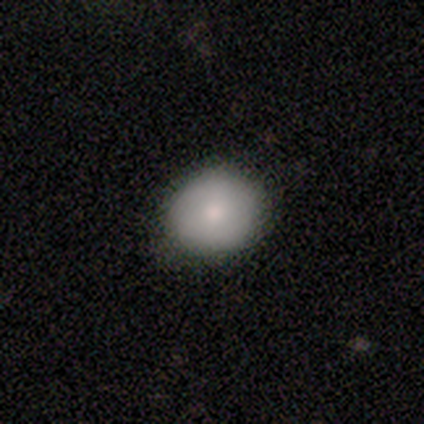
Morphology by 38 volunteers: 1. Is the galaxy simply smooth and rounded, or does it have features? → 84% smooth, 13% featured or disk, 3% star or artifact.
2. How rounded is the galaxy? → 78% round, 22% in between, 0% cigar-shaped.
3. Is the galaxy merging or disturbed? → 76% none, 22% minor disturbance, 3% major disturbance, 0% merger.